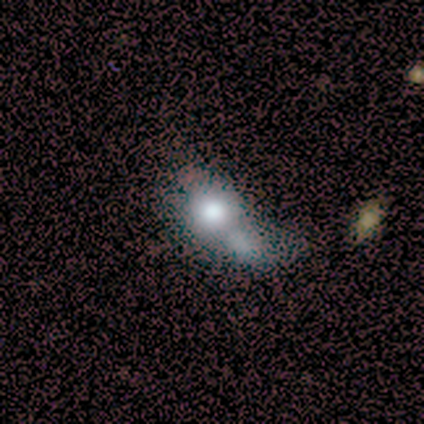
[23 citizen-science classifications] Smooth or featured?
  - smooth: 57% *
  - featured or disk: 22%
  - star or artifact: 22%
How rounded?
  - round: 69% *
  - in between: 31%
  - cigar-shaped: 0%
Merging?
  - merger: 50% *
  - major disturbance: 28%
  - none: 11%
  - minor disturbance: 11%